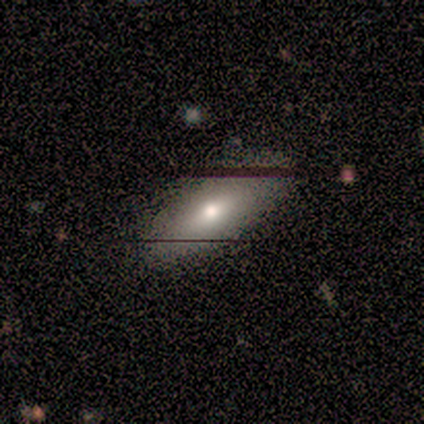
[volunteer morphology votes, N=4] Volunteers were most divided on "smooth or featured" (2-way tie): smooth: 50%, featured or disk: 50%, star or artifact: 0%. More confident: how rounded — in between (100%); merging — none (75%).